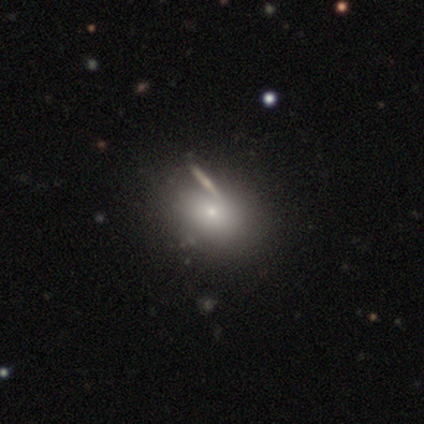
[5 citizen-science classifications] Volunteers were most divided on "merging" (2-way tie): none: 50%, merger: 50%, minor disturbance: 0%, major disturbance: 0%. More confident: smooth or featured — smooth (80%); how rounded — in between (75%).